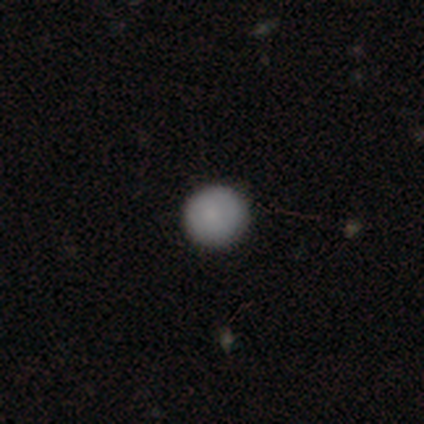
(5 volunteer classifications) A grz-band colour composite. It shows a smooth galaxy with no disk features (60%) that is round (100%). Merging: none (60%).